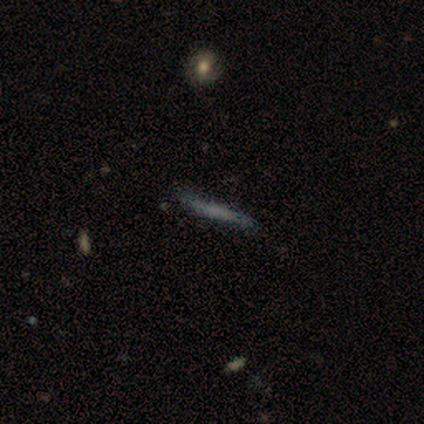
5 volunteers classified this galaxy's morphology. A featured or disk galaxy (60%) viewed edge-on (67%) with no central bulge (100%).

Vote fractions:
- Smooth or featured? featured or disk: 60% / smooth: 40% / star or artifact: 0%
- Edge-on disk? yes: 67% / no: 33%
- Edge-on bulge? none: 100% / boxy: 0% / rounded: 0%
- Merging? none: 80% / minor disturbance: 20% / major disturbance: 0% / merger: 0%